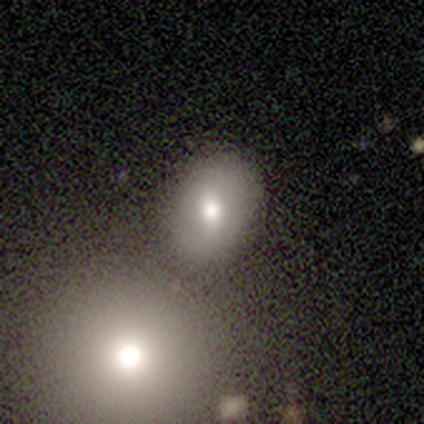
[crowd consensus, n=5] Q: Smooth or featured?
A: smooth (40%); tied with: star or artifact (40%)
Q: How rounded?
A: round (100%)
Q: Merging?
A: none (67%); runner-up: merger (33%)